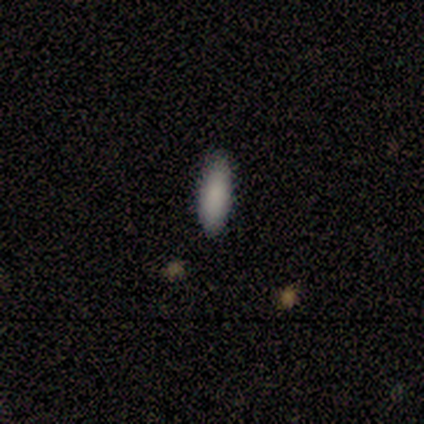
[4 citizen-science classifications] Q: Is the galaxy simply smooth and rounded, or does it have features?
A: smooth — 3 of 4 (75%).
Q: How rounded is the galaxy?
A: in between — 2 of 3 (67%).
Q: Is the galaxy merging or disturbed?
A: none — 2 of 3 (67%).